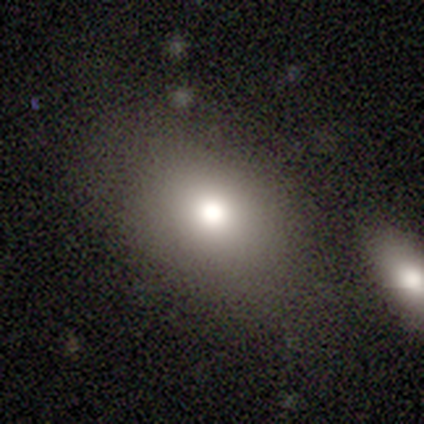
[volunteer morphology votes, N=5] A smooth galaxy with no disk features (60%) that is round (67%).

Vote fractions:
- Smooth or featured? smooth: 60% / featured or disk: 40% / star or artifact: 0%
- How rounded? round: 67% / in between: 33% / cigar-shaped: 0%
- Merging? none: 80% / merger: 20% / minor disturbance: 0% / major disturbance: 0%